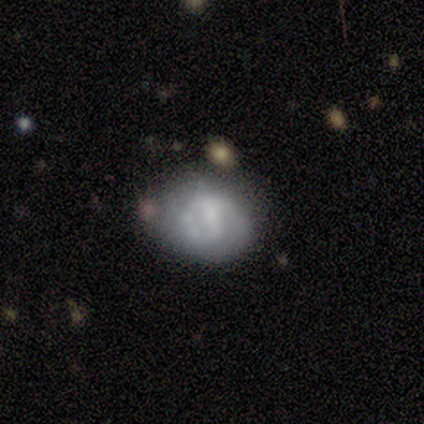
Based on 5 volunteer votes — This appears to be a featured or disk galaxy (60%) with a weak bar (67%), no spiral arms (67%) and no central bulge (67%). Merging: none (60%).